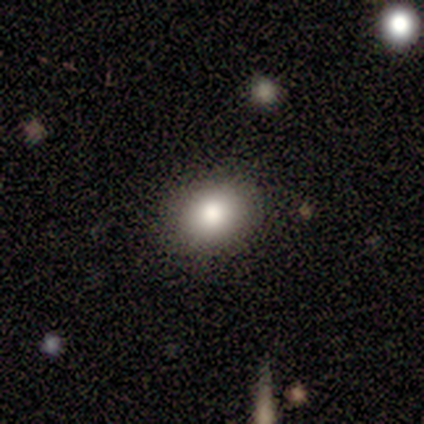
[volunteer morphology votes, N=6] smooth_or_featured: smooth (p=0.67) [alt: featured or disk p=0.17]
how_rounded: in between (p=0.75) [alt: round p=0.25]
merging: none (p=0.80) [alt: minor disturbance p=0.20]